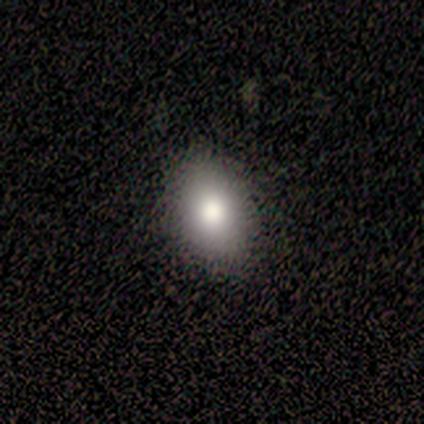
Volunteers were most divided on "smooth or featured": smooth: 67%, featured or disk: 33%, star or artifact: 0%. More confident: merging — none (100%); how rounded — in between (83%).